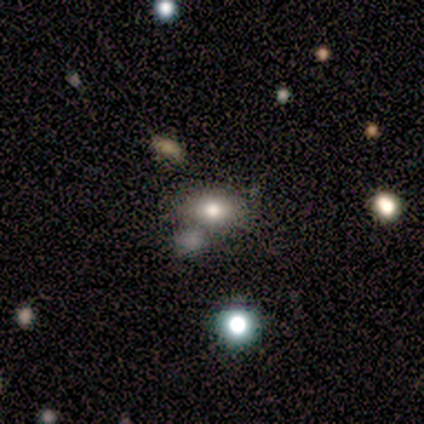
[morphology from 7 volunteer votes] This is clearly a smooth galaxy (86%). How rounded: clearly in between (83%). Merging: likely none (71%).